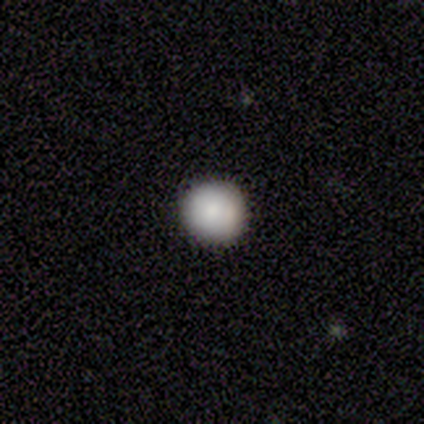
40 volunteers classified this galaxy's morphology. A smooth galaxy with no disk features (80%) that is round (91%). Merging: none (92%).